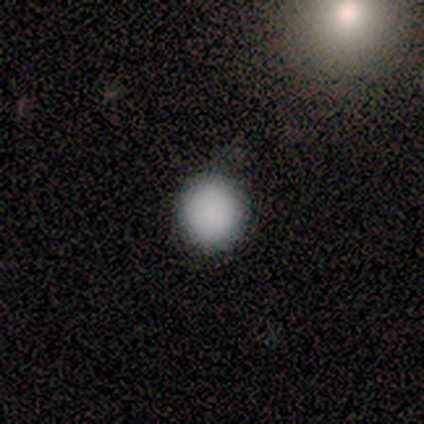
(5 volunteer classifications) A smooth galaxy with no disk features (100%) that is round (100%).

Vote fractions:
- Smooth or featured? smooth: 100% / featured or disk: 0% / star or artifact: 0%
- How rounded? round: 100% / in between: 0% / cigar-shaped: 0%
- Merging? none: 100% / minor disturbance: 0% / major disturbance: 0% / merger: 0%